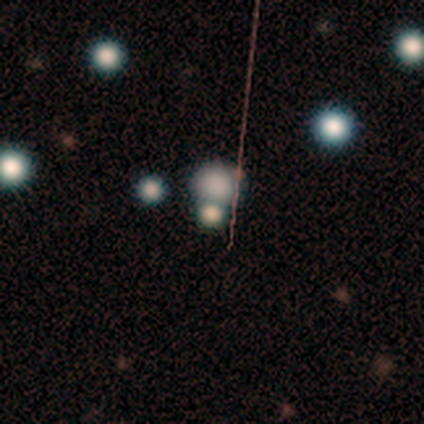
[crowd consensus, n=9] Smooth or featured: smooth — 67% (star or artifact — 33%)
How rounded: round — 100%
Merging: merger — 50% (minor disturbance — 33%)